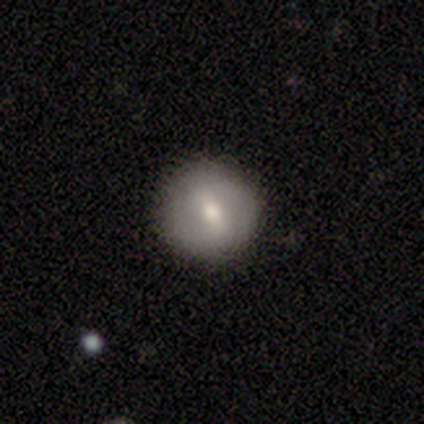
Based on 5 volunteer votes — Smooth or featured: featured or disk — 80% (smooth — 20%)
Edge-on disk: no — 100%
Bar: weak — 75% (strong — 25%)
Spiral arms: no — 75% (yes — 25%)
Bulge size: moderate — 50% (tied with small — 50%)
Merging: none — 80% (minor disturbance — 20%)